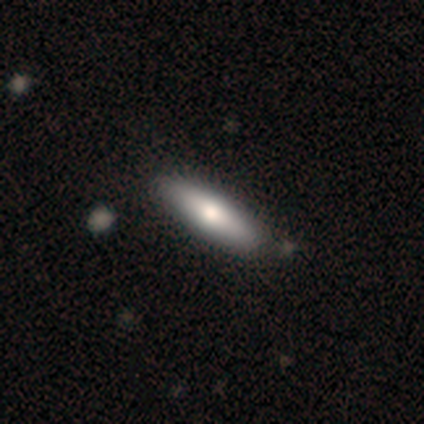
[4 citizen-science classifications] Morphology: type=smooth (75%); roundness=cigar-shaped (100%); merging=none (75%).